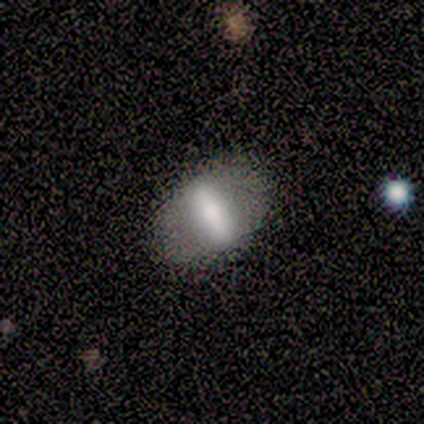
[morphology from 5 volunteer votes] This is clearly a smooth galaxy (80%). How rounded: clearly in between (100%). Merging: clearly none (80%).